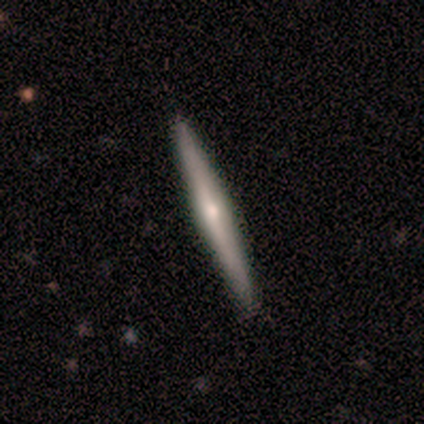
Smooth or featured? 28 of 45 (62%) said featured or disk. Edge-on disk? 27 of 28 (96%) said yes. Edge-on bulge? 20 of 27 (74%) said rounded. Merging? 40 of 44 (91%) said none.